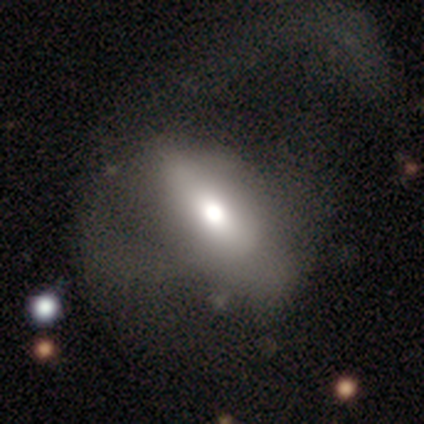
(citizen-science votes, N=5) Morphology: type=smooth (60%); roundness=in between (67%); merging=major disturbance (60%).